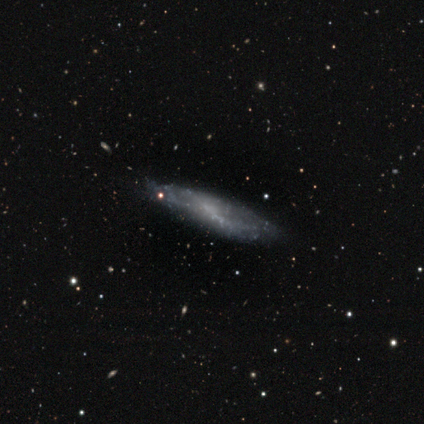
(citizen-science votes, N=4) Morphology: type=featured or disk (75%); edge-on=no (100%); bar=weak (67%); spiral arms=no (67%); bulge=none (100%); merging=none (100%).